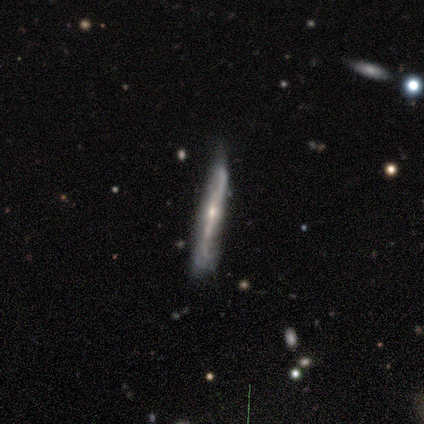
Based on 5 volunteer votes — A featured or disk galaxy (80%) viewed edge-on (100%) with no central bulge (50%, tied with rounded).

Vote fractions:
- Smooth or featured? featured or disk: 80% / smooth: 20% / star or artifact: 0%
- Edge-on disk? yes: 100% / no: 0%
- Edge-on bulge? none: 50% (tied) / rounded: 50% (tied) / boxy: 0%
- Merging? none: 60% / minor disturbance: 40% / major disturbance: 0% / merger: 0%